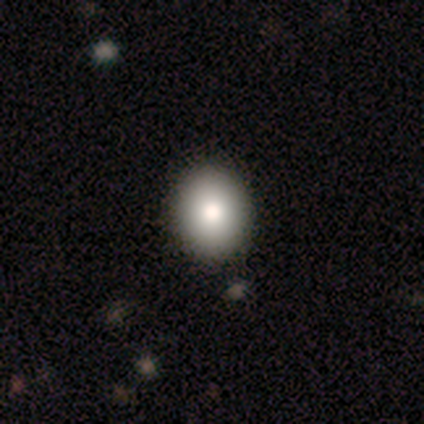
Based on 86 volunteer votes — Morphology: type=smooth (77%); roundness=round (52%); merging=none (88%).